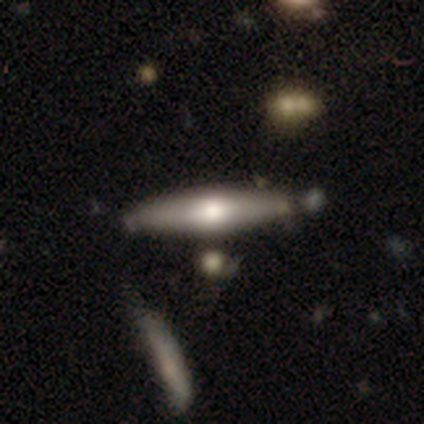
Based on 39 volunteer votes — Overall: featured or disk (54%; smooth 46%). Edge-on disk: yes (95%). Edge-on bulge: rounded (90%). Merging: none (69%).